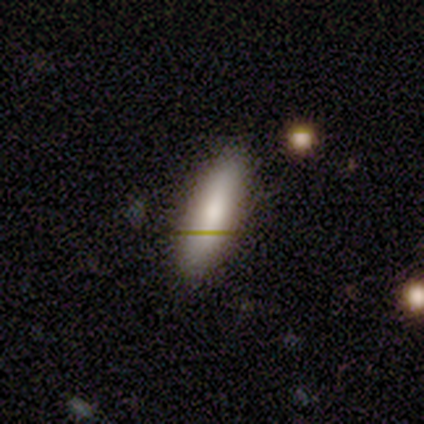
Morphology: type=smooth (100%); roundness=cigar-shaped (75%); merging=none (100%).